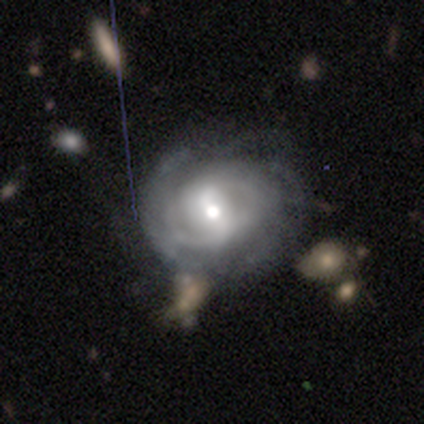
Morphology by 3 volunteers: type=featured or disk (67%); edge-on=no (100%); bar=weak (50%, tied with no); spiral arms=yes (100%); winding=medium (50%, tied with loose); arm count=2 (50%, tied with can't tell); bulge=moderate (50%, tied with small); merging=none (67%).